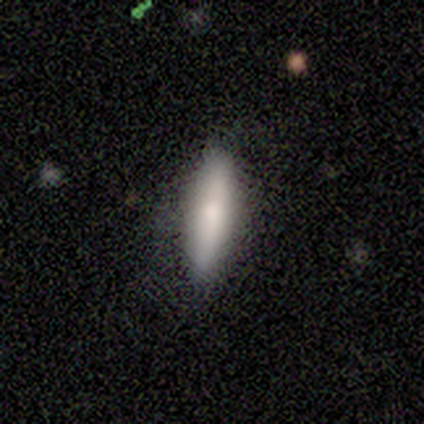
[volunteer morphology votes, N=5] Q: Smooth or featured?
A: smooth (100%)
Q: How rounded?
A: in between (80%); runner-up: cigar-shaped (20%)
Q: Merging?
A: none (100%)